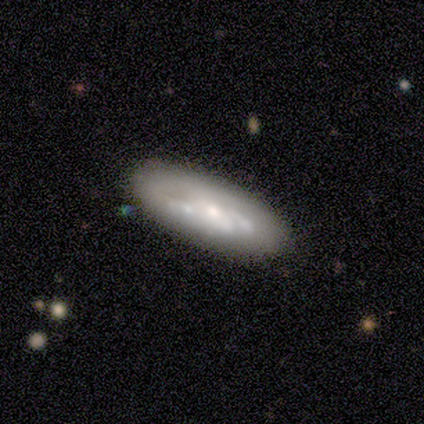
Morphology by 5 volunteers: Overall: smooth (60%; featured or disk 20%). How rounded: in between (100%). Merging: none (50%; minor disturbance 25%).